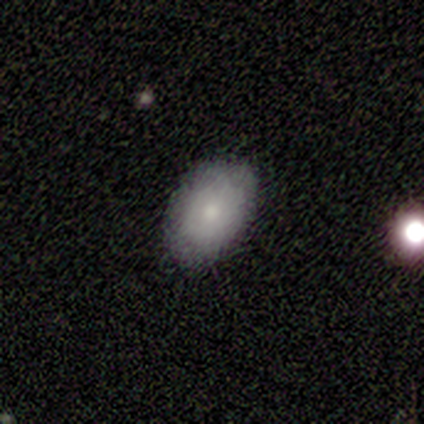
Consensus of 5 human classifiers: This appears to be a smooth galaxy with no disk features (100%) that is in between round and cigar-shaped (100%). Merging: none (80%).